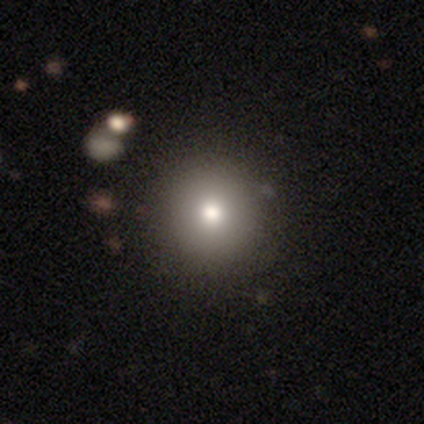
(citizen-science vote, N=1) Smooth or featured: star or artifact — 100%